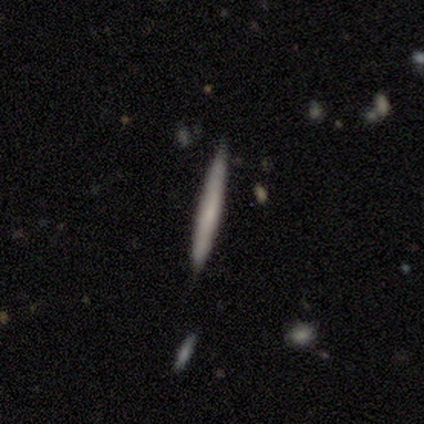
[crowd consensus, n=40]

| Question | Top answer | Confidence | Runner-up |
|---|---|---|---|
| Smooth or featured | smooth | 52% | featured or disk (42%) |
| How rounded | cigar-shaped | 100% | — |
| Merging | none | 92% | minor disturbance (8%) |